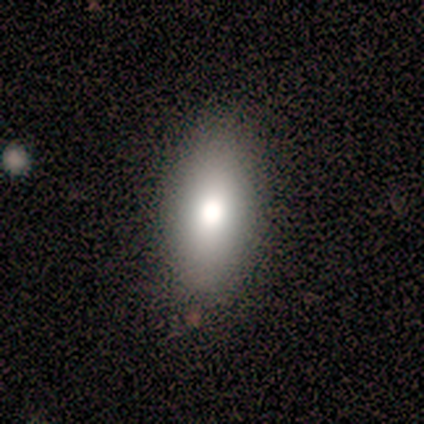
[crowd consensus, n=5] A smooth galaxy with no disk features (80%) that is in between round and cigar-shaped (75%).

Vote fractions:
- Smooth or featured? smooth: 80% / featured or disk: 20% / star or artifact: 0%
- How rounded? in between: 75% / round: 25% / cigar-shaped: 0%
- Merging? none: 100% / minor disturbance: 0% / major disturbance: 0% / merger: 0%